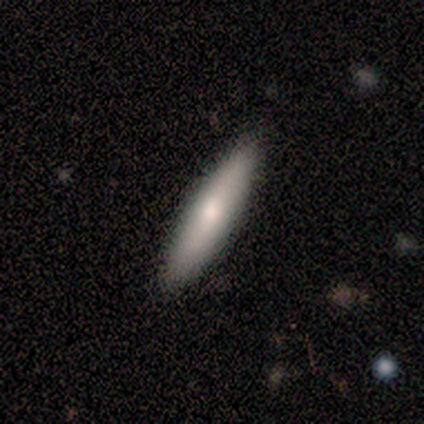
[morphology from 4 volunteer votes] smooth-or-featured: smooth: 75% | featured or disk: 25% | star or artifact: 0%
  how-rounded: cigar-shaped: 100% | round: 0% | in between: 0%
  merging: none: 100% | minor disturbance: 0% | major disturbance: 0% | merger: 0%